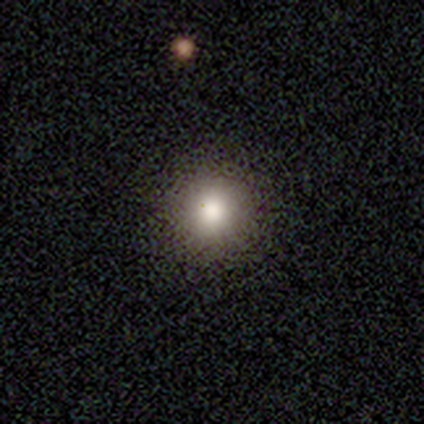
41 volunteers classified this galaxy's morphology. smooth 83%, star or artifact 10%, featured or disk 7%. Down the decision tree: how rounded — round (100%); merging — none (95%).